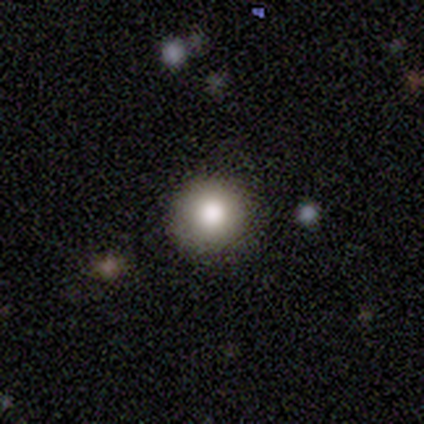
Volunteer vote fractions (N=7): Q: Smooth or featured?
A: smooth (86%); runner-up: featured or disk (14%)
Q: How rounded?
A: round (100%)
Q: Merging?
A: none (100%)